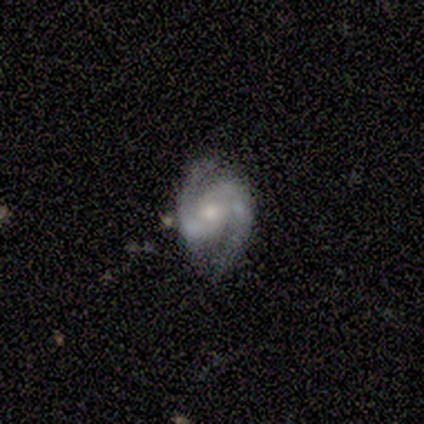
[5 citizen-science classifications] Volunteers were most divided on "spiral arms" (2-way tie): yes: 50%, no: 50%; "merging" (2-way tie): none: 50%, major disturbance: 50%, minor disturbance: 0%, merger: 0%. More confident: bar — weak (100%); spiral winding — medium (100%); spiral arm count — 2 (100%); bulge size — small (100%); edge-on disk — no (67%); smooth or featured — featured or disk (60%).